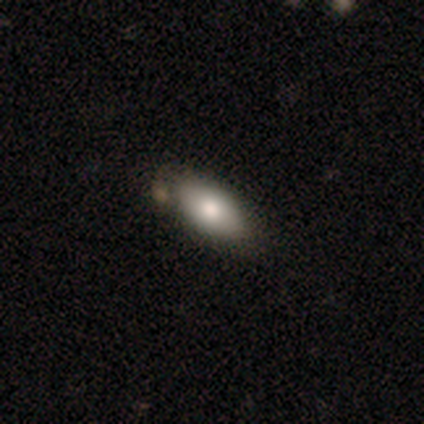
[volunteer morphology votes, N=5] Smooth or featured? smooth (80%)
How rounded? in between (75%)
Merging? none (60%)